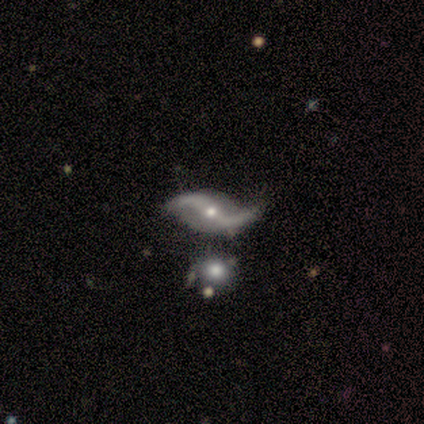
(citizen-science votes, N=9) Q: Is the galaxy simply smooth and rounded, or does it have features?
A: featured or disk — 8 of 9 (89%).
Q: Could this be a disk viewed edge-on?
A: no — 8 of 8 (100%).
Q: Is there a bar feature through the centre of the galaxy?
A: no — 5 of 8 (62%).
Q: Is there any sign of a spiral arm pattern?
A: yes — 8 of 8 (100%).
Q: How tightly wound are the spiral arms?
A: loose — 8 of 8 (100%).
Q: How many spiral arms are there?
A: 2 — 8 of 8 (100%).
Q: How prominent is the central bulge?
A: small — 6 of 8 (75%).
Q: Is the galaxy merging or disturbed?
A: none — 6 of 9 (67%).